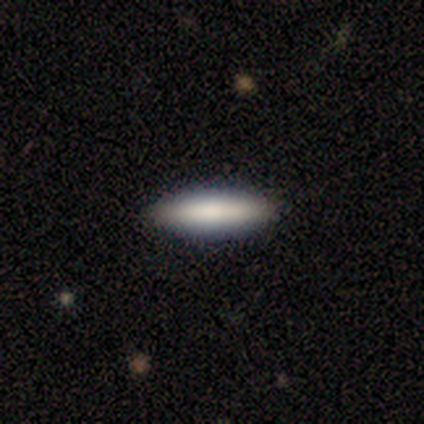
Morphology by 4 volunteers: This is likely a featured or disk galaxy (75%). It is clearly viewed edge-on (100%). Edge-on bulge: likely none (67%). Merging: clearly none (100%).